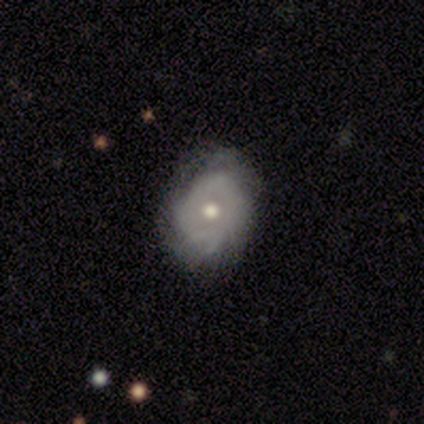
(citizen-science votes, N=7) Volunteers were most divided on "smooth or featured": featured or disk: 57%, smooth: 43%, star or artifact: 0%. More confident: edge-on disk — no (100%); bar — no (100%); spiral arms — yes (75%); bulge size — moderate (75%); merging — none (71%); spiral winding — tight (67%); spiral arm count — can't tell (67%).